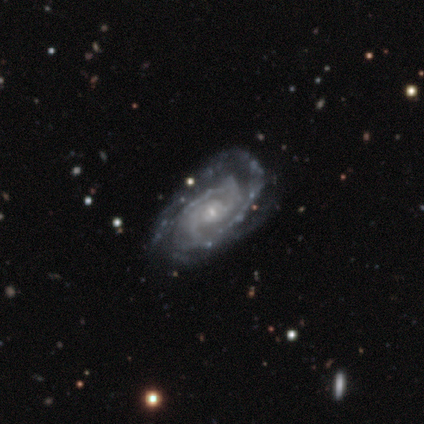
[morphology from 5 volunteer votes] Smooth or featured? 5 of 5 (100%) said featured or disk. Edge-on disk? 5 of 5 (100%) said no. Bar? 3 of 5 (60%) said no. Spiral arms? 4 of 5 (80%) said yes. Spiral winding? 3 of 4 (75%) said medium. Spiral arm count? 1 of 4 (25%, tied with 3, 4 and can't tell) said 2. Bulge size? 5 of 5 (100%) said small. Merging? 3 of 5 (60%) said none.